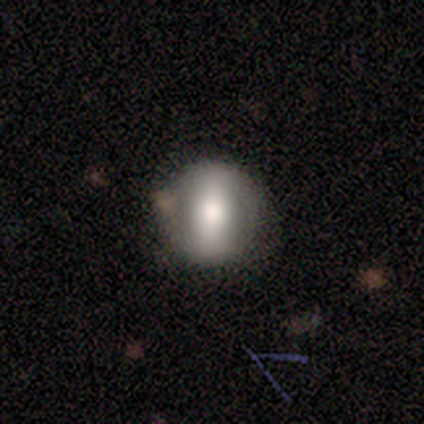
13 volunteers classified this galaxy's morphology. Overall: smooth (46%, tied with featured or disk). How rounded: round (67%; in between 33%). Merging: none (83%).